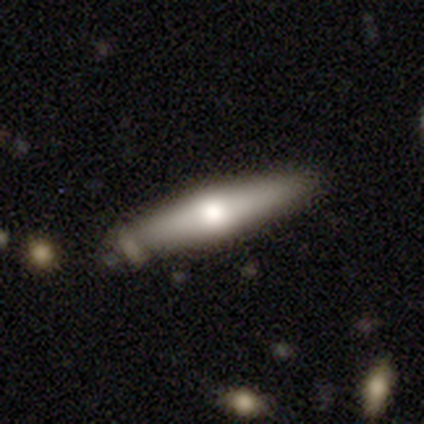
Volunteers were most divided on "smooth or featured": featured or disk: 51%, smooth: 49%, star or artifact: 0%. More confident: edge-on disk — yes (100%); edge-on bulge — rounded (80%); merging — none (69%).